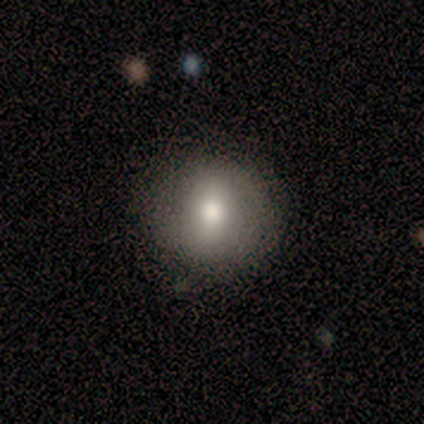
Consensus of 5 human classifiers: Smooth or featured? smooth (80%)
How rounded? round (75%)
Merging? none (100%)